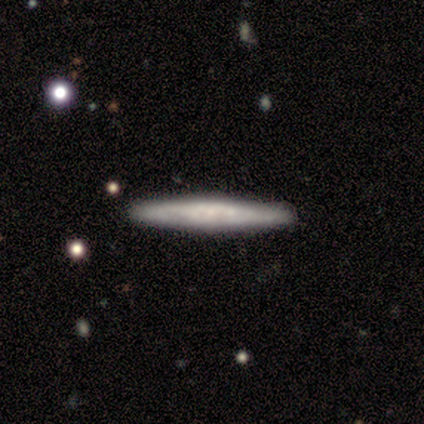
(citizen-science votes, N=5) smooth-or-featured: featured or disk: 40% (tied) | star or artifact: 40% (tied) | smooth: 20%
  disk-edge-on: yes: 50% (tied) | no: 50% (tied)
    edge-on-bulge: boxy: 100% | none: 0% | rounded: 0%
  merging: none: 100% | minor disturbance: 0% | major disturbance: 0% | merger: 0%